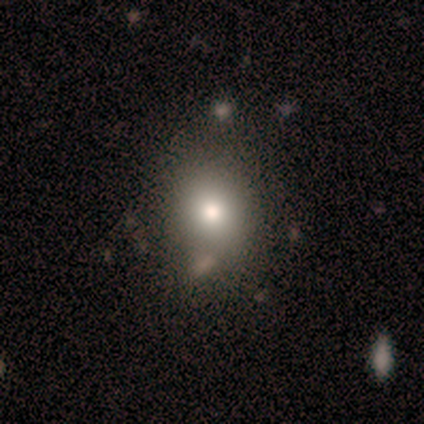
Volunteers were most divided on "merging": none: 60%, minor disturbance: 40%, major disturbance: 0%, merger: 0%. More confident: smooth or featured — smooth (80%); how rounded — round (75%).